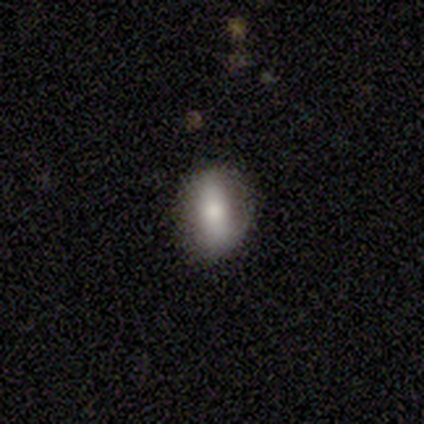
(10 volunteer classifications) This is clearly a smooth galaxy (90%). How rounded: likely in between (78%). Merging: clearly none (90%).